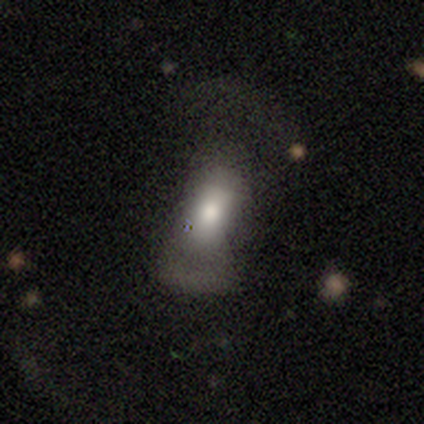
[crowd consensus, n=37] smooth 59%, featured or disk 30%, star or artifact 11%. Down the decision tree: how rounded — in between (82%); merging — major disturbance (61%).